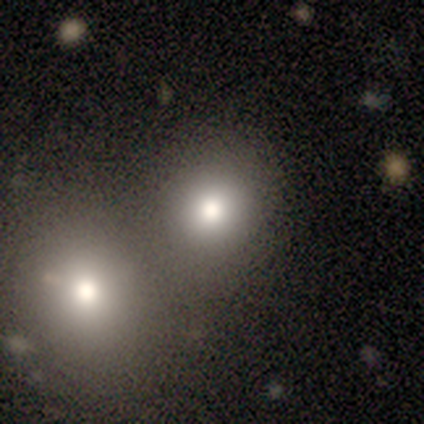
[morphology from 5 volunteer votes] Overall: smooth (80%). How rounded: round (100%). Merging: none (100%).